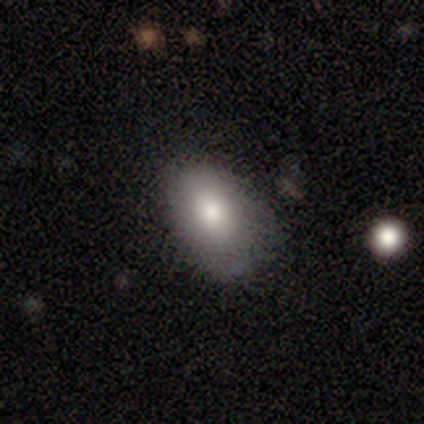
smooth_or_featured: smooth (p=0.80) [alt: star or artifact p=0.20]
how_rounded: in between (p=1.00)
merging: minor disturbance (p=0.75) [alt: none p=0.25]